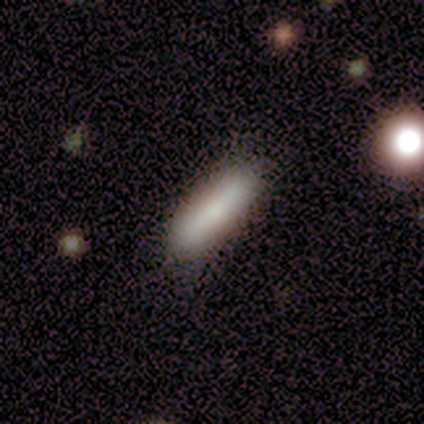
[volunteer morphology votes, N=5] type=smooth (100%); roundness=in between (60%); merging=none (80%).